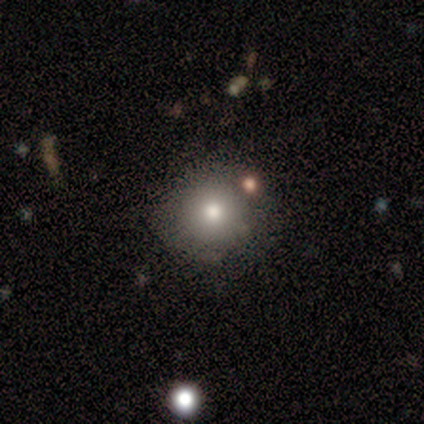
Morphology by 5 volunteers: smooth_or_featured: smooth (p=0.40) [tied with: featured or disk p=0.40]
how_rounded: round (p=0.50) [tied with: in between p=0.50]
merging: none (p=0.75) [alt: minor disturbance p=0.25]